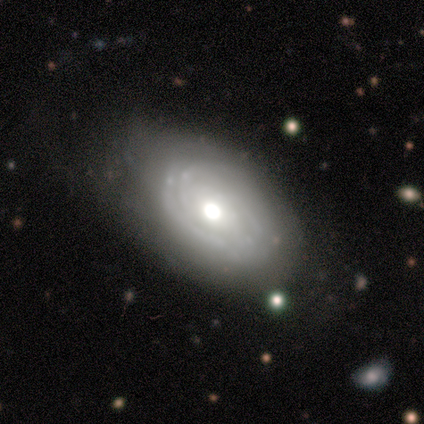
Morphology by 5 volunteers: A featured or disk galaxy (100%) with no bar (60%), tight (50%, tied with medium) spiral arms (80%) and a moderate central bulge (100%).

Vote fractions:
- Smooth or featured? featured or disk: 100% / smooth: 0% / star or artifact: 0%
- Edge-on disk? no: 100% / yes: 0%
- Bar? no: 60% / strong: 20% / weak: 20%
- Spiral arms? yes: 80% / no: 20%
- Spiral winding? tight: 50% (tied) / medium: 50% (tied) / loose: 0%
- Spiral arm count? can't tell: 75% / 3: 25% / 1: 0% / 2: 0% / 4: 0% / more than 4: 0%
- Bulge size? moderate: 100% / dominant: 0% / large: 0% / small: 0% / none: 0%
- Merging? none: 80% / minor disturbance: 20% / major disturbance: 0% / merger: 0%